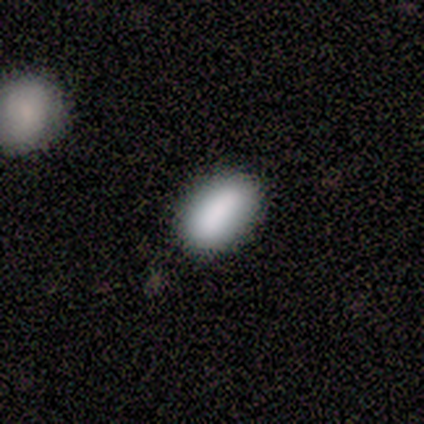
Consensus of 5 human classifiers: Smooth or featured: smooth — 60% (featured or disk — 20%)
How rounded: in between — 100%
Merging: none — 100%